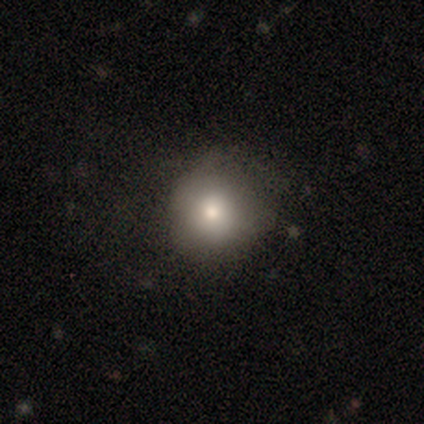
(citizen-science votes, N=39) smooth-or-featured: smooth: 79% | featured or disk: 10% | star or artifact: 10%
  how-rounded: round: 94% | in between: 6% | cigar-shaped: 0%
  merging: none: 57% | minor disturbance: 26% | major disturbance: 17% | merger: 0%